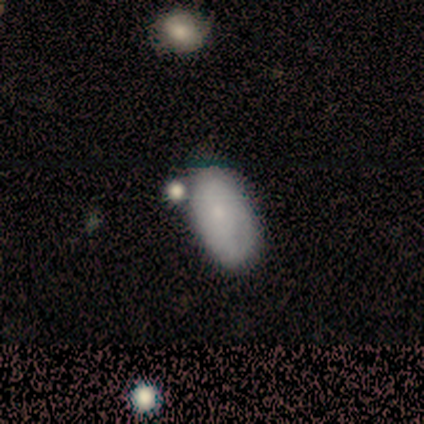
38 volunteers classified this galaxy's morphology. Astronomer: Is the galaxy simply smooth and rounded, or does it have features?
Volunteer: smooth — 61%.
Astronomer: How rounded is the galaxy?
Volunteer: in between — 100%.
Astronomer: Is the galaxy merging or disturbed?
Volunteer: none — 65%.